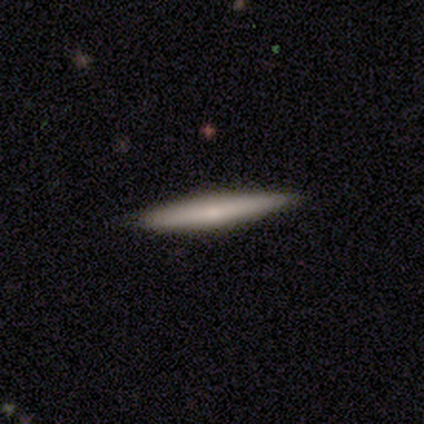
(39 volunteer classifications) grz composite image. It shows a smooth galaxy with no disk features (54%) that is cigar-shaped (100%). Merging: none (89%).